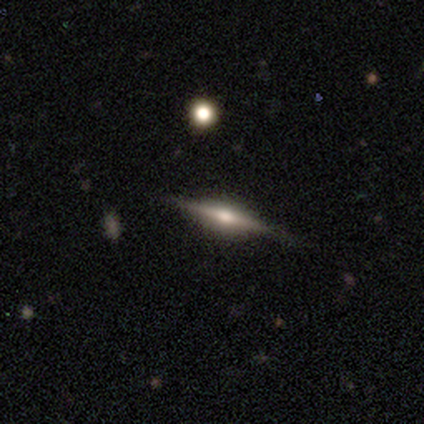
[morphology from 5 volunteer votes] A featured or disk galaxy (80%) viewed edge-on (100%) with a rounded central bulge (75%). Merging: none (80%).